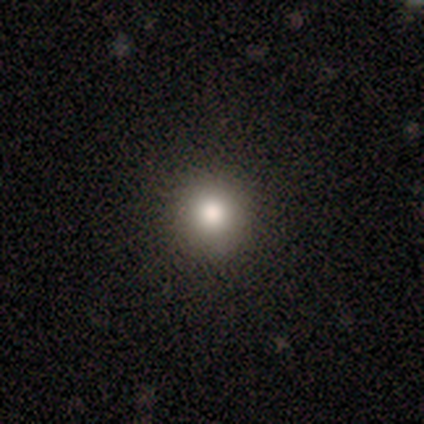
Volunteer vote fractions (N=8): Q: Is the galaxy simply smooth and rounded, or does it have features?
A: smooth — 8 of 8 (100%).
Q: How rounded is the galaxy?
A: round — 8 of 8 (100%).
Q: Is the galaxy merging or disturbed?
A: none — 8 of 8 (100%).